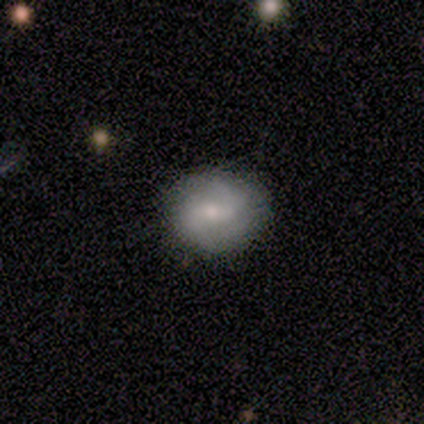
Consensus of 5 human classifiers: Smooth or featured?
  - smooth: 40% * (tied)
  - featured or disk: 40% * (tied)
  - star or artifact: 20%
How rounded?
  - in between: 100% *
  - round: 0%
  - cigar-shaped: 0%
Merging?
  - none: 100% *
  - minor disturbance: 0%
  - major disturbance: 0%
  - merger: 0%